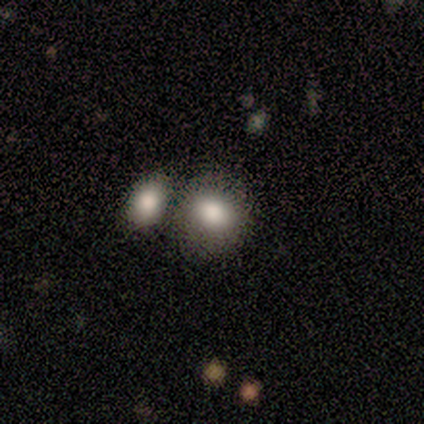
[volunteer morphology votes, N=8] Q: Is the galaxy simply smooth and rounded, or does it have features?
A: smooth — 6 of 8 (75%).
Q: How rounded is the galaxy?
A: round — 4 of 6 (67%).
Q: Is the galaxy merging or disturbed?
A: none — 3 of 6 (50%).